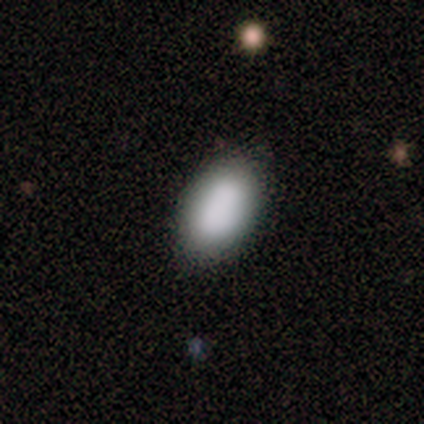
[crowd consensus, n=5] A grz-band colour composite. It shows a smooth galaxy with no disk features (80%) that is in between round and cigar-shaped (75%). Merging: none (100%).